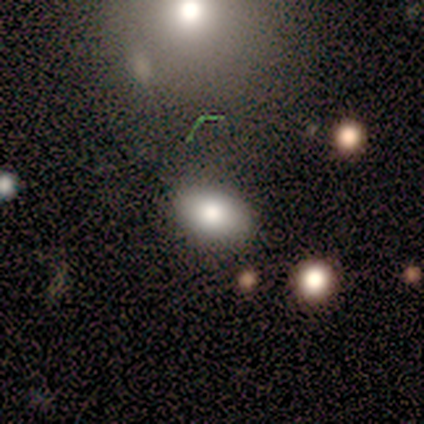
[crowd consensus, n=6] smooth 83%, featured or disk 17%, star or artifact 0%. Down the decision tree: how rounded — in between (100%); merging — none (100%).